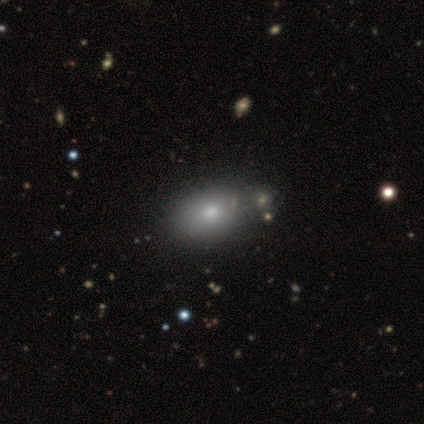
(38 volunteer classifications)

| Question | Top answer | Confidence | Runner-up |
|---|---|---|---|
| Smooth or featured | smooth | 79% | star or artifact (13%) |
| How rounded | in between | 73% | round (23%) |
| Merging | none | 52% | merger (9%) |